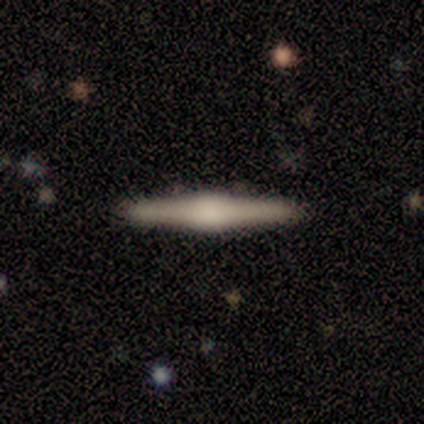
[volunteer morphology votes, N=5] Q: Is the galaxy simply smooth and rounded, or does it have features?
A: featured or disk — 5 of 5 (100%).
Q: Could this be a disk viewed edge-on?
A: yes — 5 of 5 (100%).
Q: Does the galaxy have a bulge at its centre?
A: rounded — 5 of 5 (100%).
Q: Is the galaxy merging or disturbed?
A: none — 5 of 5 (100%).